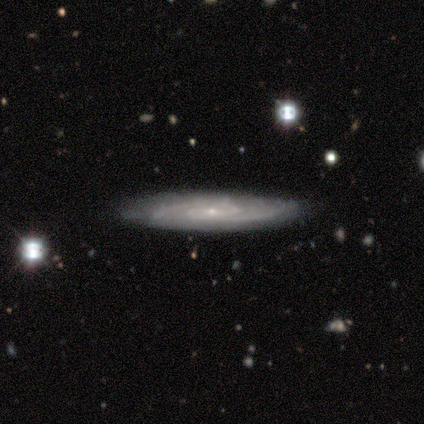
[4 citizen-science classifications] Smooth or featured: featured or disk — 100%
Edge-on disk: no — 75% (yes — 25%)
Bar: weak — 67% (no — 33%)
Spiral arms: yes — 100%
Spiral winding: tight — 33% (tied with medium — 33%; loose — 33%)
Spiral arm count: 2 — 100%
Bulge size: small — 100%
Merging: none — 100%